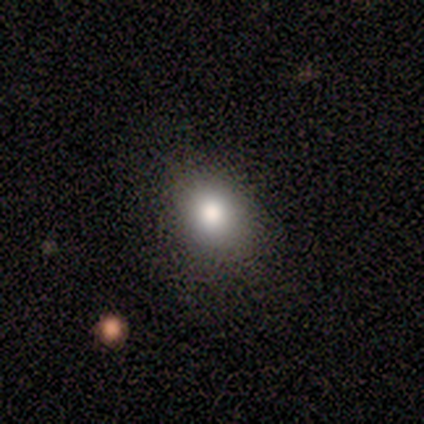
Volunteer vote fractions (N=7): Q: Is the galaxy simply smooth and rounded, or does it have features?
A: smooth — 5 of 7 (71%).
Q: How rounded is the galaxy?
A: in between — 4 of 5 (80%).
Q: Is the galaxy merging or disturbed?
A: none — 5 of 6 (83%).